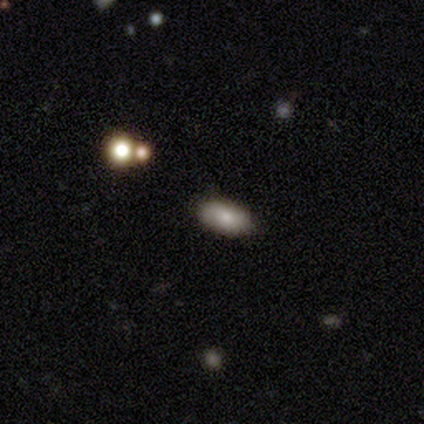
Q: Smooth or featured?
A: smooth (60%); runner-up: featured or disk (20%)
Q: How rounded?
A: in between (100%)
Q: Merging?
A: none (100%)